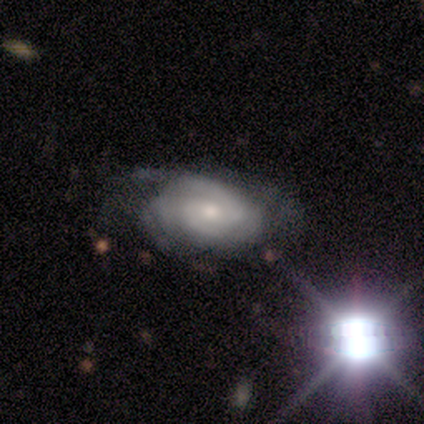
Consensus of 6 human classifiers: Smooth or featured?
  - featured or disk: 67% *
  - star or artifact: 33%
  - smooth: 0%
Edge-on disk?
  - no: 100% *
  - yes: 0%
Bar?
  - no: 75% *
  - weak: 25%
  - strong: 0%
Spiral arms?
  - yes: 100% *
  - no: 0%
Spiral winding?
  - tight: 50% *
  - medium: 25%
  - loose: 25%
Spiral arm count?
  - 2: 50% *
  - 4: 25%
  - can't tell: 25%
  - 1: 0%
  - 3: 0%
  - more than 4: 0%
Bulge size?
  - small: 100% *
  - dominant: 0%
  - large: 0%
  - moderate: 0%
  - none: 0%
Merging?
  - none: 100% *
  - minor disturbance: 0%
  - major disturbance: 0%
  - merger: 0%